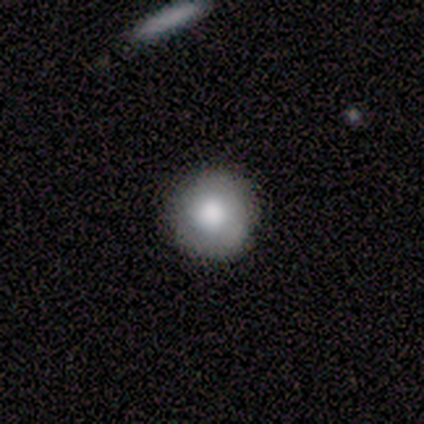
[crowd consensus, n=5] Smooth or featured? 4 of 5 (80%) said smooth. How rounded? 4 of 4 (100%) said round. Merging? 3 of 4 (75%) said none.